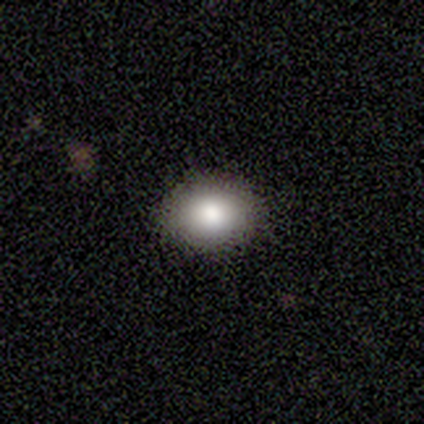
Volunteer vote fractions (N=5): Q: Smooth or featured?
A: smooth (80%); runner-up: star or artifact (20%)
Q: How rounded?
A: round (100%)
Q: Merging?
A: none (100%)